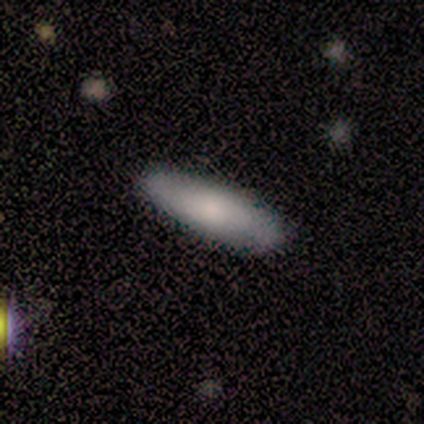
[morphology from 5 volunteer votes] A smooth galaxy with no disk features (100%) that is cigar-shaped (100%).

Vote fractions:
- Smooth or featured? smooth: 100% / featured or disk: 0% / star or artifact: 0%
- How rounded? cigar-shaped: 100% / round: 0% / in between: 0%
- Merging? none: 80% / minor disturbance: 20% / major disturbance: 0% / merger: 0%